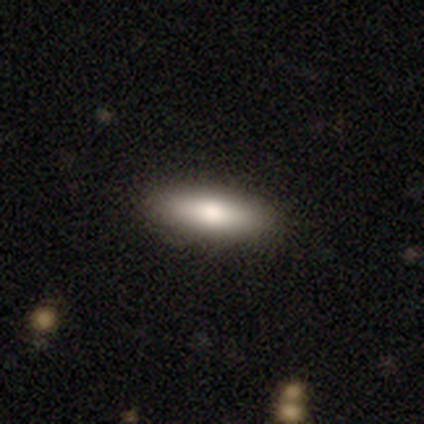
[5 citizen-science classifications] smooth 100%, featured or disk 0%, star or artifact 0%. Down the decision tree: how rounded — in between (80%); merging — none (100%).